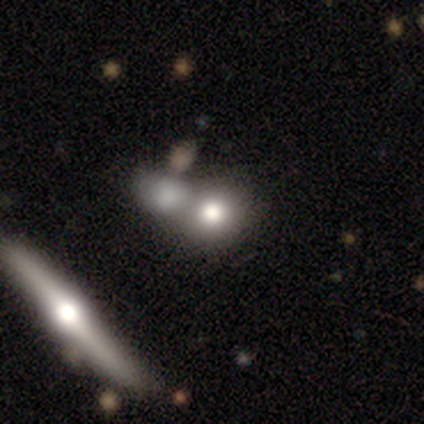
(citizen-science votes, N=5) Volunteers were most divided on "how rounded": round: 67%, in between: 33%, cigar-shaped: 0%. More confident: merging — merger (100%); smooth or featured — smooth (60%).